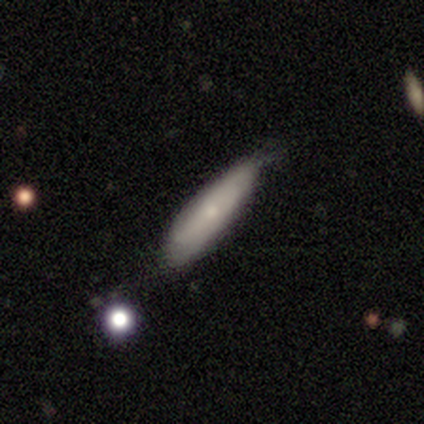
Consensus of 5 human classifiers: Morphology: type=smooth (60%); roundness=in between (67%); merging=minor disturbance (60%).